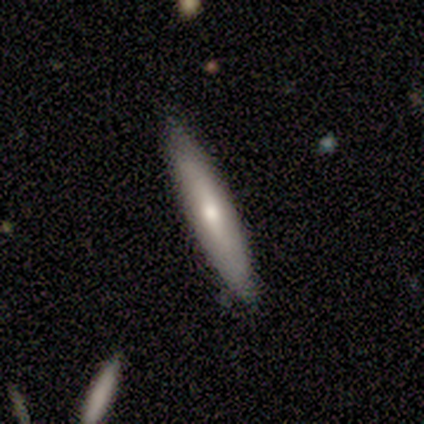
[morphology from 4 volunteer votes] This is possibly a smooth galaxy (50%, tied with featured or disk). How rounded: possibly in between (50%, tied with cigar-shaped). Merging: clearly none (100%).